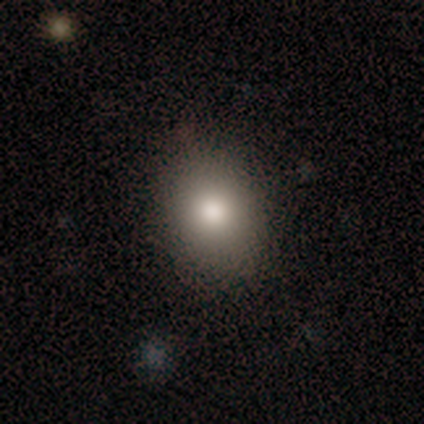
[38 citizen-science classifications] Smooth or featured?
  - smooth: 87% *
  - featured or disk: 11%
  - star or artifact: 3%
How rounded?
  - round: 52% *
  - in between: 48%
  - cigar-shaped: 0%
Merging?
  - none: 92% *
  - minor disturbance: 5%
  - major disturbance: 3%
  - merger: 0%